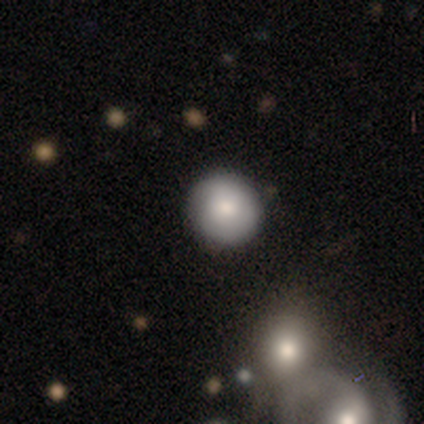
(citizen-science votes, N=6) A smooth galaxy with no disk features (67%) that is round (100%).

Vote fractions:
- Smooth or featured? smooth: 67% / featured or disk: 33% / star or artifact: 0%
- How rounded? round: 100% / in between: 0% / cigar-shaped: 0%
- Merging? none: 83% / minor disturbance: 17% / major disturbance: 0% / merger: 0%